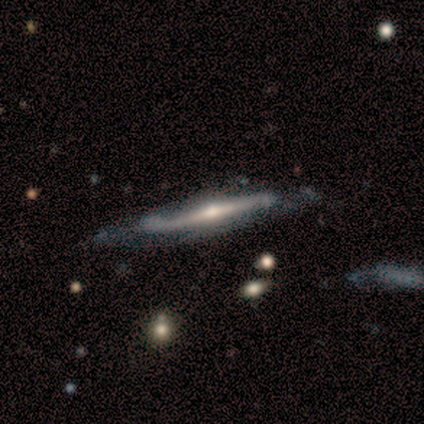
This is clearly a featured or disk galaxy (80%). It is clearly viewed edge-on (100%). Edge-on bulge: likely rounded (75%). Merging: likely minor disturbance (60%).